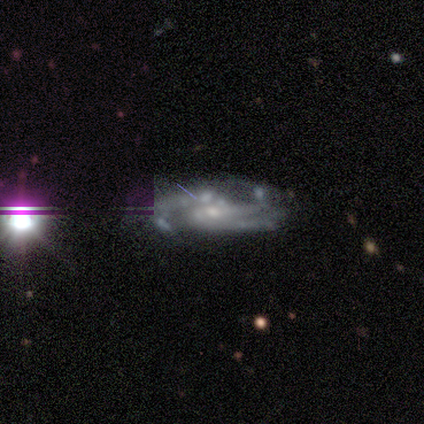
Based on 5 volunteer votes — Morphology: type=featured or disk (40%, tied with star or artifact); edge-on=no (100%); bar=weak (100%); spiral arms=yes (100%); winding=tight (100%); arm count=2 (50%, tied with 3); bulge=small (100%); merging=none (67%).